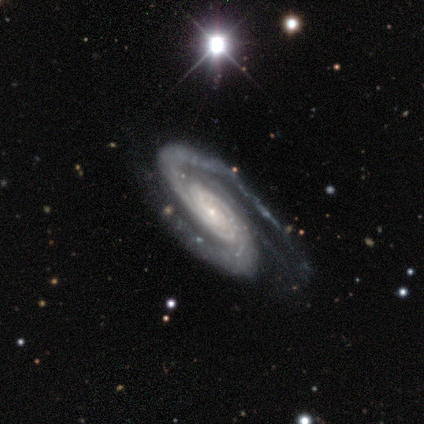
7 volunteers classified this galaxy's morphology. Smooth or featured: featured or disk — 100%
Edge-on disk: no — 100%
Bar: no — 86% (strong — 14%)
Spiral arms: yes — 100%
Spiral winding: medium — 57% (tight — 43%)
Spiral arm count: 2 — 100%
Bulge size: small — 71% (large — 14%)
Merging: minor disturbance — 57% (none — 29%)